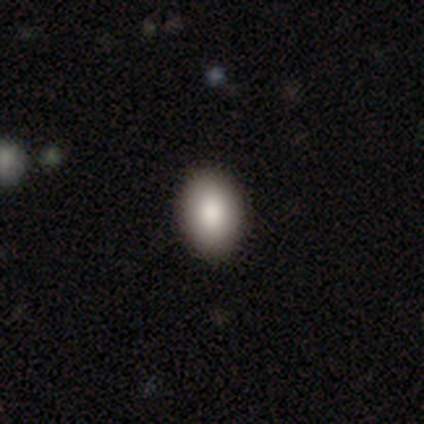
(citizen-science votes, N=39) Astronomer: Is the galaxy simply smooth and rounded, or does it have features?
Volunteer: smooth — 85%.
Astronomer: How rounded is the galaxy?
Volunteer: in between — 76%.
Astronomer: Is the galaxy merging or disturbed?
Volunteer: none — 67%.